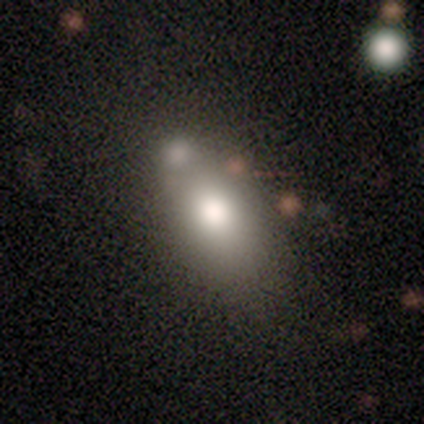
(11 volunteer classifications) Morphology: type=smooth (73%); roundness=in between (100%); merging=none (60%).